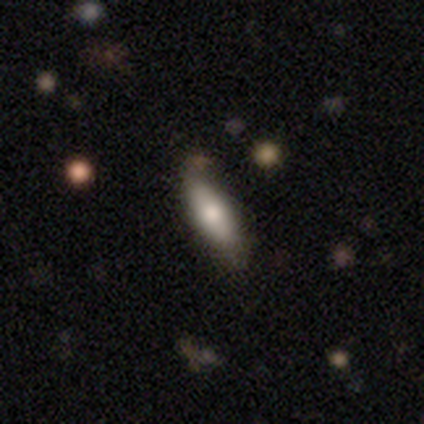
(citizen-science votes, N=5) Volunteers were most divided on "smooth or featured": smooth: 60%, featured or disk: 40%, star or artifact: 0%. More confident: merging — none (100%); how rounded — in between (67%).